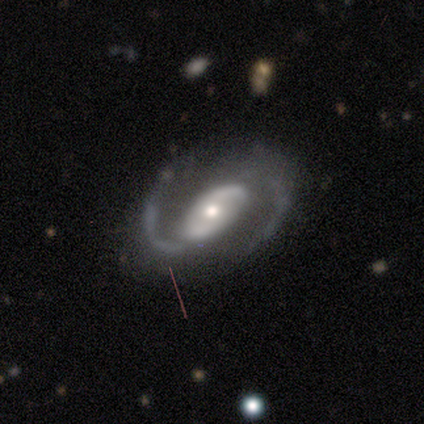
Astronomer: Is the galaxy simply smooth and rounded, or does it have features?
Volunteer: featured or disk — 80%.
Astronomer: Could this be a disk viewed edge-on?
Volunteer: no — 100%.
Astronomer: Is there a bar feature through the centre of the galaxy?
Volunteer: no — 50%.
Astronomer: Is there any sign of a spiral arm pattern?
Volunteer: yes — 100%.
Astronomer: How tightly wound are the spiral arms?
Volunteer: medium — 75%.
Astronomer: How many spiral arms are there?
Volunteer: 2 — 100%.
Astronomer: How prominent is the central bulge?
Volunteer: large — 50%, tied with moderate at 50%.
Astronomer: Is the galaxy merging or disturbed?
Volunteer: none — 80%.